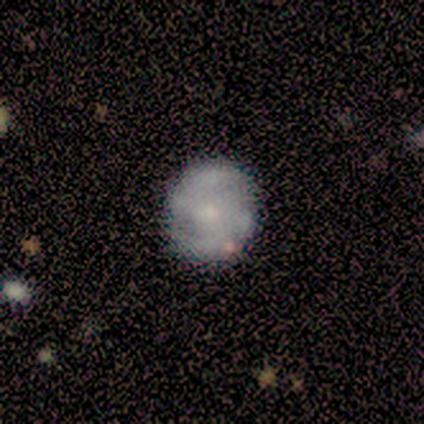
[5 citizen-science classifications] Smooth or featured? featured or disk (80%)
Edge-on disk? no (100%)
Bar? weak (75%)
Spiral arms? yes (50%, tied with no)
Spiral winding? tight (100%)
Spiral arm count? 2 (100%)
Bulge size? small (100%)
Merging? none (100%)